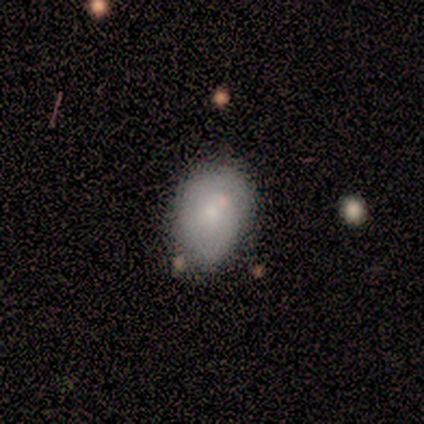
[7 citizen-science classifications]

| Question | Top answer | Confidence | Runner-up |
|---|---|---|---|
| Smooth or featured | featured or disk | 57% | smooth (43%) |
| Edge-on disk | no | 100% | — |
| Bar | weak | 50% | tied: no (50%) |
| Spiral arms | yes | 50% | tied: no (50%) |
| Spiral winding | tight | 100% | — |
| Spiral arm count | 2 | 50% | tied: can't tell (50%) |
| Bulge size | small | 100% | — |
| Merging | none | 57% | minor disturbance (43%) |